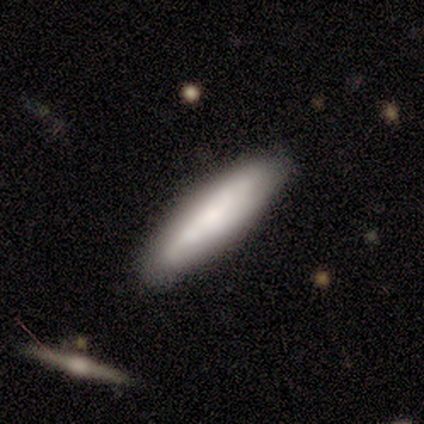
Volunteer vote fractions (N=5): Smooth or featured? smooth (80%)
How rounded? cigar-shaped (75%)
Merging? none (100%)